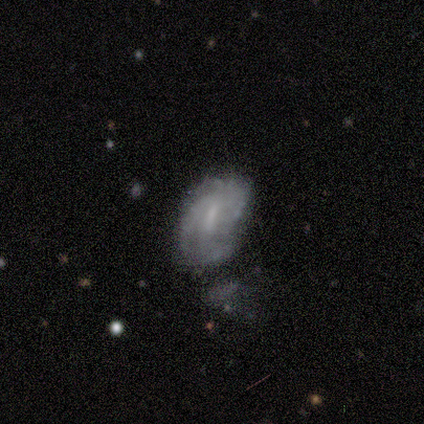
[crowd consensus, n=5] Morphology: type=featured or disk (80%); edge-on=no (100%); bar=weak (100%); spiral arms=yes (100%); winding=tight (50%, tied with medium); arm count=can't tell (50%); bulge=none (75%); merging=none (60%).